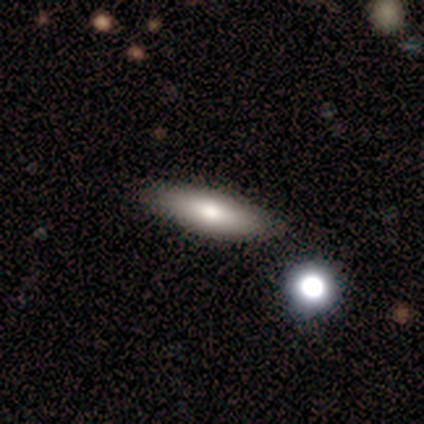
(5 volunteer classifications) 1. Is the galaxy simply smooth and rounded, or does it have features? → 60% smooth, 40% featured or disk, 0% star or artifact.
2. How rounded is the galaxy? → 67% in between, 33% cigar-shaped, 0% round.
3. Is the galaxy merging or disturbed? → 100% none, 0% minor disturbance, 0% major disturbance, 0% merger.